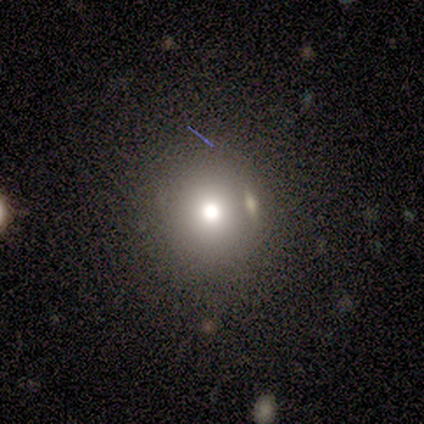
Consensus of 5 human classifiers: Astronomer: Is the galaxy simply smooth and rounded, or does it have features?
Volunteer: smooth — 60%.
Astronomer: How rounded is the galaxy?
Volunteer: round — 67%.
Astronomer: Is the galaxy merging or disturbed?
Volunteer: none — 50%, tied with minor disturbance at 50%.